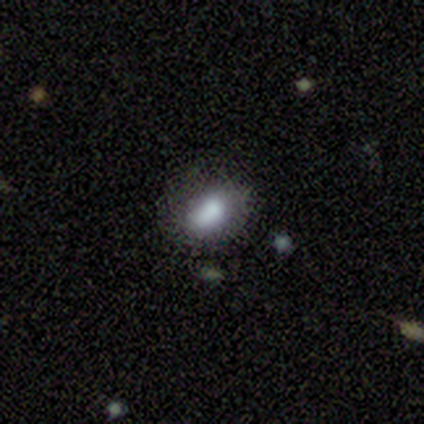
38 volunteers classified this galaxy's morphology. Smooth or featured? smooth (76%)
How rounded? in between (66%)
Merging? none (59%)